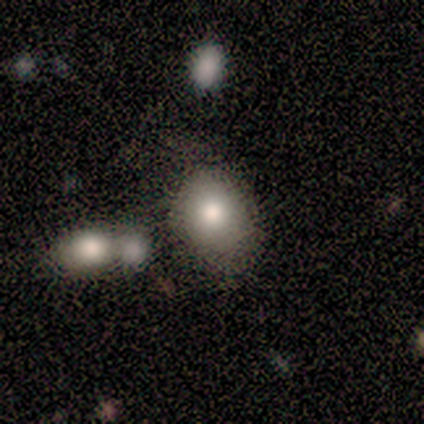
Overall: smooth (93%). How rounded: in between (64%; round 29%). Merging: none (71%).